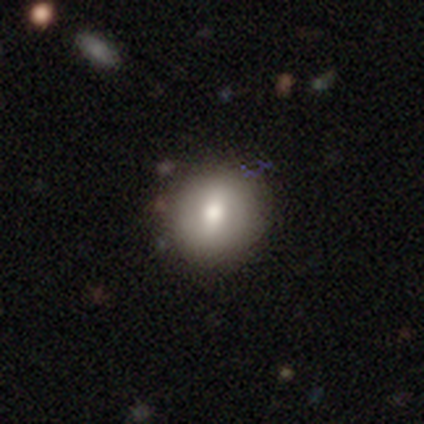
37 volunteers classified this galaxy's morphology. Overall: smooth (70%). How rounded: round (85%). Merging: none (86%).